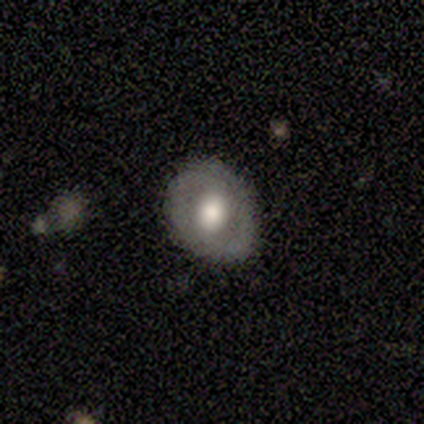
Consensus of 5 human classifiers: Morphology: type=smooth (60%); roundness=round (67%); merging=none (75%).